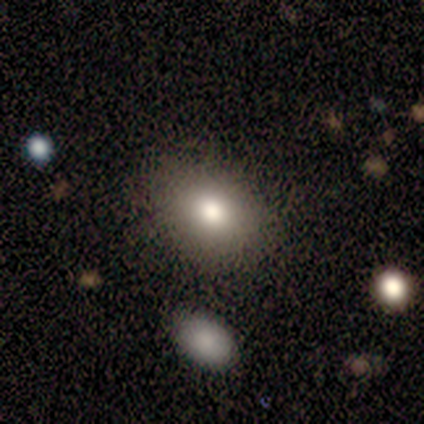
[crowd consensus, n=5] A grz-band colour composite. It shows a smooth galaxy with no disk features (100%) that is in between round and cigar-shaped (60%). Merging: none (100%).